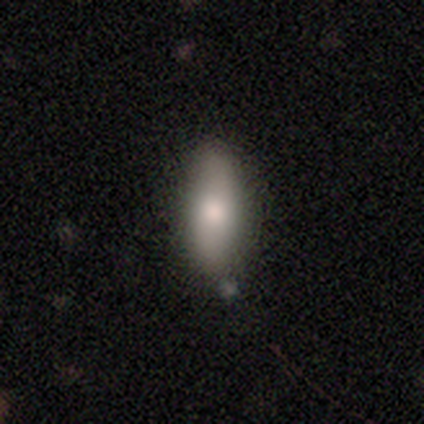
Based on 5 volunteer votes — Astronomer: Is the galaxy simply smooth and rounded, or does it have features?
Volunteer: smooth — 60% (runner-up: featured or disk, 40%).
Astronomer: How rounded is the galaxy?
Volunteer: cigar-shaped — 67%.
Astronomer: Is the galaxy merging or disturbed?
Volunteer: none — 100%.